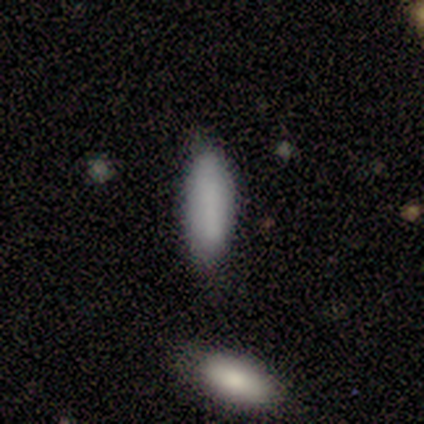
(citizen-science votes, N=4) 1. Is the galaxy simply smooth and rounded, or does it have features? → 100% smooth, 0% featured or disk, 0% star or artifact.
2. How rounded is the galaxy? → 50% in between (tied), 50% cigar-shaped (tied), 0% round.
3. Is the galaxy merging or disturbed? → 100% none, 0% minor disturbance, 0% major disturbance, 0% merger.